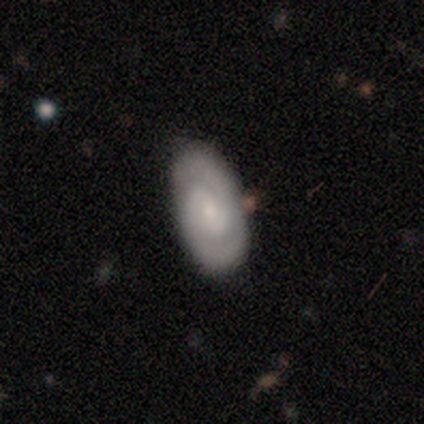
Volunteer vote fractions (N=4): smooth_or_featured: featured or disk (p=0.75) [alt: star or artifact p=0.25]
disk_edge_on: no (p=1.00)
bar: strong (p=0.33) [tied with: weak p=0.33, no p=0.33]
has_spiral_arms: yes (p=1.00)
spiral_winding: medium (p=0.67) [alt: tight p=0.33]
spiral_arm_count: 2 (p=0.67) [alt: 1 p=0.33]
bulge_size: small (p=1.00)
merging: none (p=1.00)